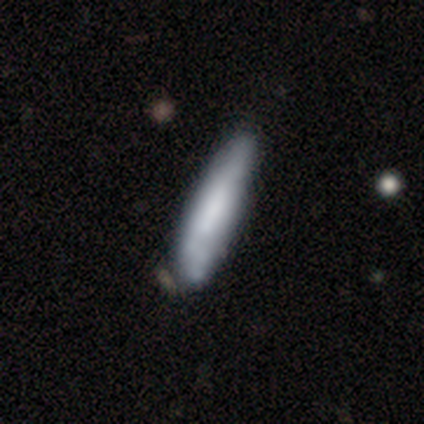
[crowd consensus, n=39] smooth_or_featured: smooth (p=0.59) [alt: featured or disk p=0.41]
how_rounded: cigar-shaped (p=0.83) [alt: in between p=0.17]
merging: none (p=0.28) [alt: minor disturbance p=0.21]